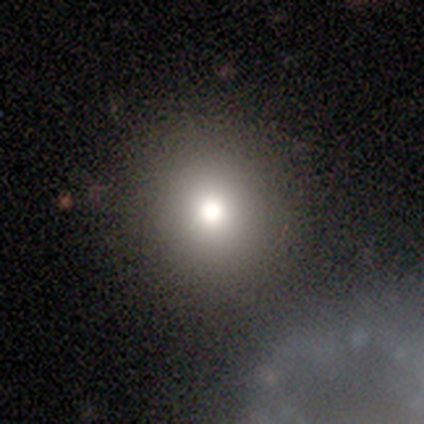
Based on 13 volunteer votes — smooth-or-featured: smooth: 92% | featured or disk: 8% | star or artifact: 0%
  how-rounded: round: 100% | in between: 0% | cigar-shaped: 0%
  merging: none: 92% | major disturbance: 8% | minor disturbance: 0% | merger: 0%